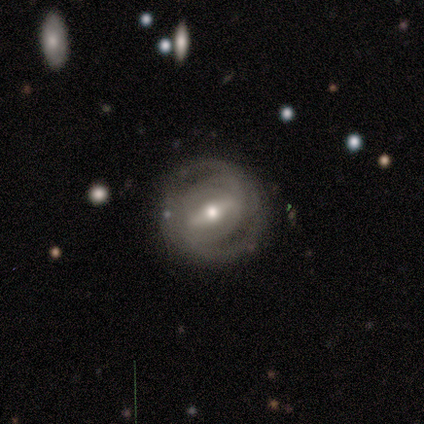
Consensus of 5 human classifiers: Smooth or featured?
  - featured or disk: 60% *
  - smooth: 20%
  - star or artifact: 20%
Edge-on disk?
  - no: 100% *
  - yes: 0%
Bar?
  - strong: 100% *
  - weak: 0%
  - no: 0%
Spiral arms?
  - yes: 100% *
  - no: 0%
Spiral winding?
  - tight: 100% *
  - medium: 0%
  - loose: 0%
Spiral arm count?
  - 2: 100% *
  - 1: 0%
  - 3: 0%
  - 4: 0%
  - more than 4: 0%
  - can't tell: 0%
Bulge size?
  - moderate: 100% *
  - dominant: 0%
  - large: 0%
  - small: 0%
  - none: 0%
Merging?
  - none: 75% *
  - minor disturbance: 25%
  - major disturbance: 0%
  - merger: 0%